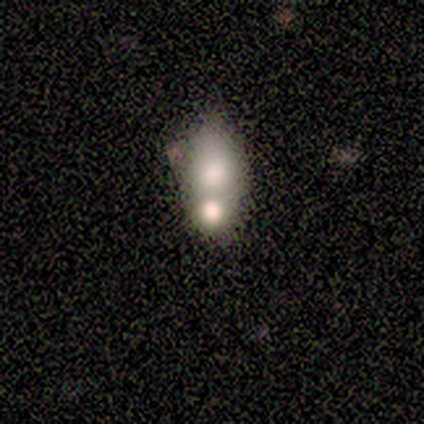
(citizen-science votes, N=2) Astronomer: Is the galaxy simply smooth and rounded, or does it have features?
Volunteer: smooth — 50%, tied with featured or disk at 50%.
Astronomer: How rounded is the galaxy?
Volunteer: in between — 100%.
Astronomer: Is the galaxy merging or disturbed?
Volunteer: merger — 100%.